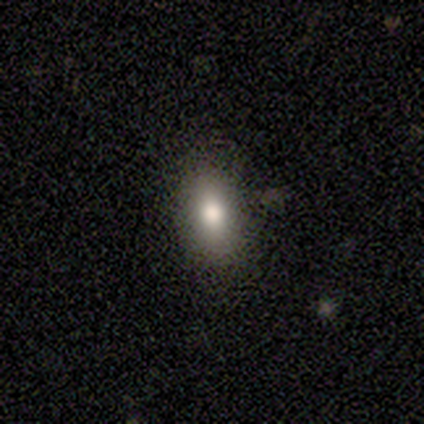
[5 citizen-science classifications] Smooth or featured?
  - smooth: 60% *
  - featured or disk: 20%
  - star or artifact: 20%
How rounded?
  - in between: 67% *
  - cigar-shaped: 33%
  - round: 0%
Merging?
  - none: 100% *
  - minor disturbance: 0%
  - major disturbance: 0%
  - merger: 0%